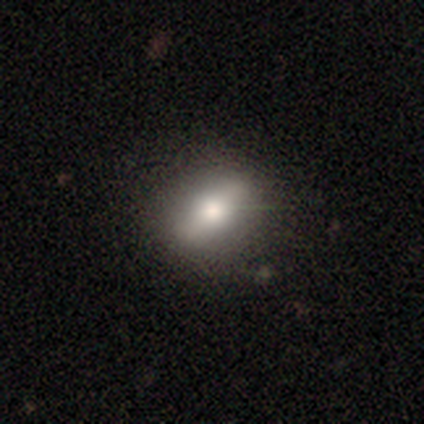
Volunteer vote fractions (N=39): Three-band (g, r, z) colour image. It shows a smooth galaxy with no disk features (67%) that is in between round and cigar-shaped (50%). Merging: none (84%).